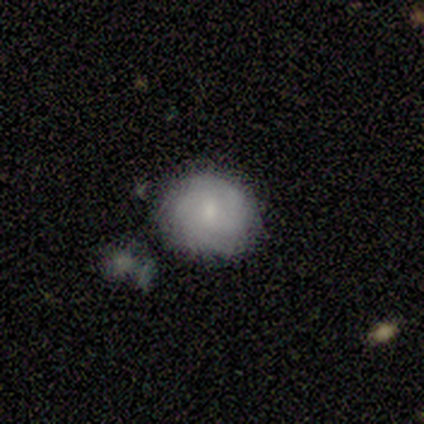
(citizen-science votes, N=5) Smooth or featured: featured or disk — 60% (smooth — 40%)
Edge-on disk: no — 100%
Bar: weak — 67% (no — 33%)
Spiral arms: yes — 100%
Spiral winding: medium — 67% (tight — 33%)
Spiral arm count: 2 — 67% (3 — 33%)
Bulge size: small — 67% (moderate — 33%)
Merging: none — 80% (minor disturbance — 20%)